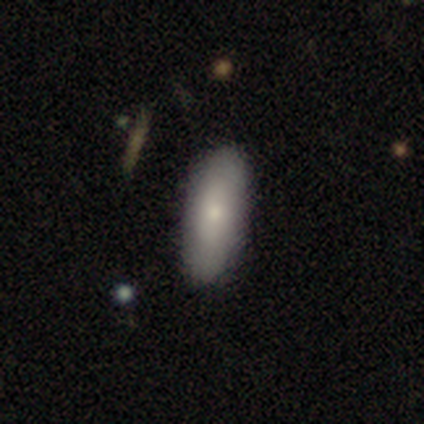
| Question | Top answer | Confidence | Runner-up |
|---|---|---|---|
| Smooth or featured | smooth | 100% | — |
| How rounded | in between | 60% | cigar-shaped (40%) |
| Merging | none | 60% | minor disturbance (20%) |